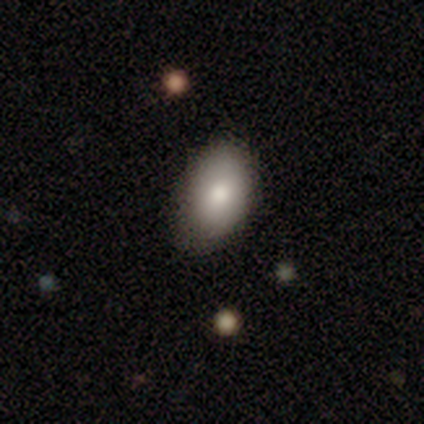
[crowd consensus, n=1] smooth-or-featured: featured or disk: 100% | smooth: 0% | star or artifact: 0%
  disk-edge-on: yes: 100% | no: 0%
    edge-on-bulge: none: 100% | boxy: 0% | rounded: 0%
  merging: minor disturbance: 100% | none: 0% | major disturbance: 0% | merger: 0%